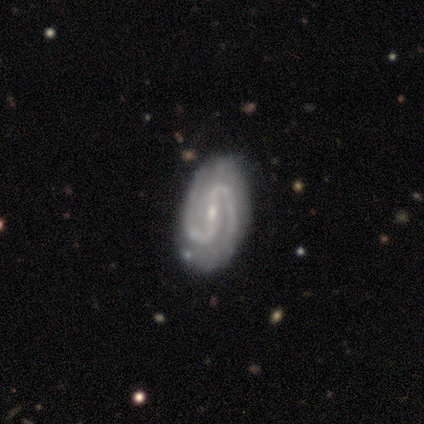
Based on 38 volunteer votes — Smooth or featured: featured or disk — 89% (smooth — 5%)
Edge-on disk: no — 100%
Bar: strong — 47% (weak — 41%)
Spiral arms: yes — 100%
Spiral winding: medium — 53% (tight — 29%)
Spiral arm count: 2 — 97% (4 — 3%)
Bulge size: small — 68% (moderate — 21%)
Merging: none — 83% (minor disturbance — 14%)